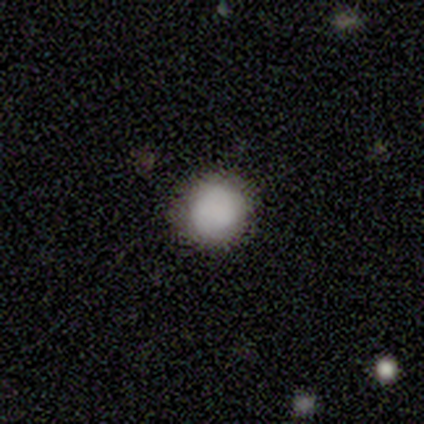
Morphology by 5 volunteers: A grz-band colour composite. It shows a smooth galaxy with no disk features (100%) that is round (100%). Merging: none (100%).